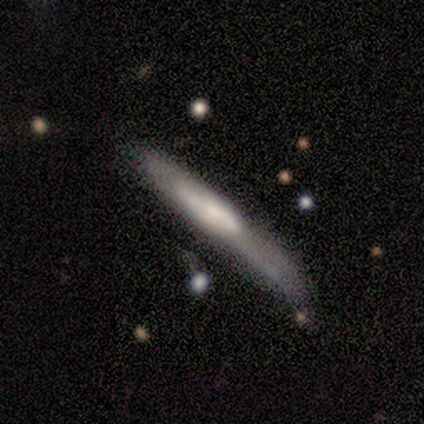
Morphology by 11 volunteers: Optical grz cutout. It shows a smooth galaxy with no disk features (55%) that is cigar-shaped (100%). Merging: none (45%).